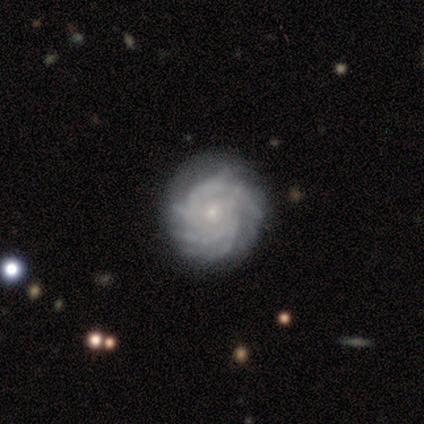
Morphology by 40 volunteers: Smooth or featured?
  - featured or disk: 85% *
  - smooth: 12%
  - star or artifact: 2%
Edge-on disk?
  - no: 100% *
  - yes: 0%
Bar?
  - no: 82% *
  - weak: 15%
  - strong: 3%
Spiral arms?
  - yes: 97% *
  - no: 3%
Spiral winding?
  - tight: 82% *
  - medium: 15%
  - loose: 3%
Spiral arm count?
  - more than 4: 33% *
  - 4: 30%
  - can't tell: 27%
  - 3: 6%
  - 2: 3%
  - 1: 0%
Bulge size?
  - small: 85% *
  - moderate: 6%
  - none: 6%
  - large: 3%
  - dominant: 0%
Merging?
  - none: 62% *
  - minor disturbance: 10%
  - major disturbance: 5%
  - merger: 0%